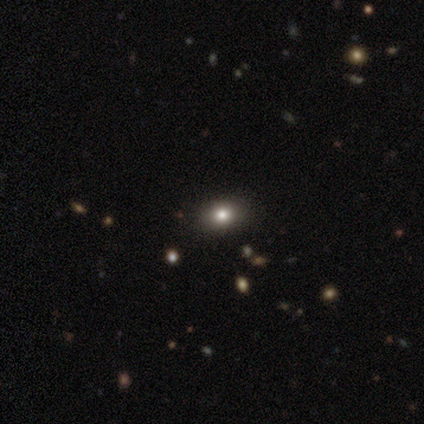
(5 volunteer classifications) Smooth or featured? 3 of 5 (60%) said smooth. How rounded? 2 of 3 (67%) said in between. Merging? 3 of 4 (75%) said none.